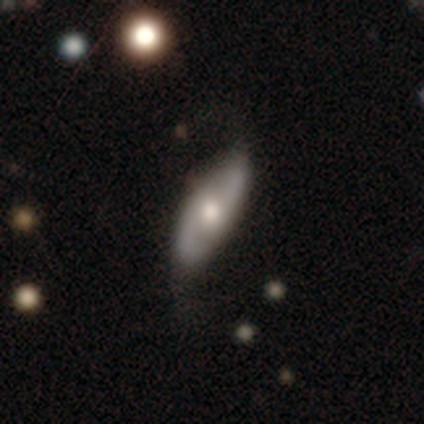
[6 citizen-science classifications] featured or disk 67%, smooth 33%, star or artifact 0%. Down the decision tree: edge-on disk — no (100%); bar — weak (50%, tied with no); spiral arms — yes (75%); spiral arm count — 2 (100%); spiral winding — medium (67%); bulge size — moderate (50%); merging — none (83%).